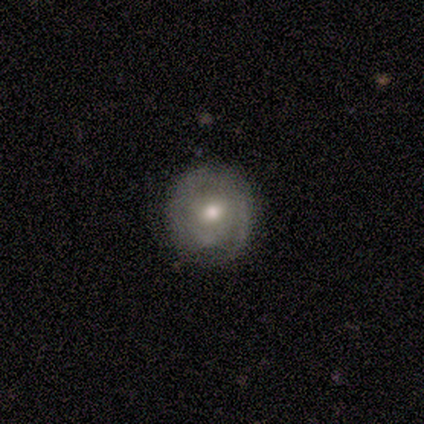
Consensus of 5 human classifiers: Volunteers were most divided on "smooth or featured": featured or disk: 60%, smooth: 40%, star or artifact: 0%. More confident: edge-on disk — no (100%); spiral arms — no (100%); merging — none (80%); bar — no (67%); bulge size — moderate (67%).